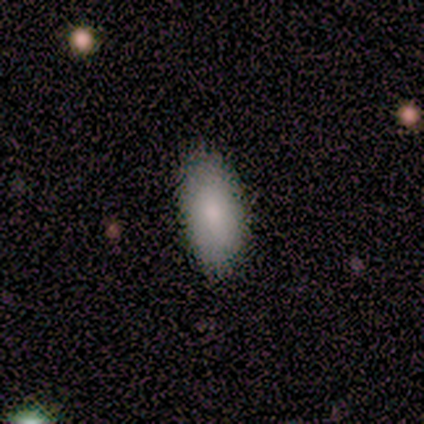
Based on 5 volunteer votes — Volunteers were most divided on "smooth or featured": smooth: 60%, featured or disk: 40%, star or artifact: 0%. More confident: how rounded — in between (100%); merging — none (100%).